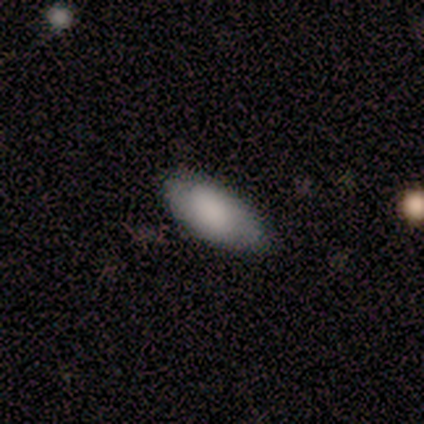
Smooth or featured?
  - smooth: 86% *
  - featured or disk: 7%
  - star or artifact: 7%
How rounded?
  - in between: 92% *
  - cigar-shaped: 8%
  - round: 0%
Merging?
  - none: 69% *
  - minor disturbance: 23%
  - major disturbance: 8%
  - merger: 0%